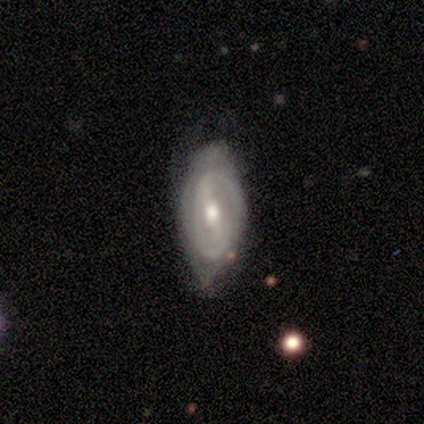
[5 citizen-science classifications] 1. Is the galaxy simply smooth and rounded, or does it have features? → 100% featured or disk, 0% smooth, 0% star or artifact.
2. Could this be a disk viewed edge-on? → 80% no, 20% yes.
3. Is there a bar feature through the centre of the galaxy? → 75% weak, 25% strong, 0% no.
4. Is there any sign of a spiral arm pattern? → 75% yes, 25% no.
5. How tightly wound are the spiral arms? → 33% tight (tied), 33% medium (tied), 33% loose (tied).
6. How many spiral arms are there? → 33% 2 (tied), 33% 3 (tied), 33% can't tell (tied), 0% 1, 0% 4, 0% more than 4.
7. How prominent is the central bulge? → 100% moderate, 0% dominant, 0% large, 0% small, 0% none.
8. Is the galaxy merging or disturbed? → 60% none, 40% minor disturbance, 0% major disturbance, 0% merger.